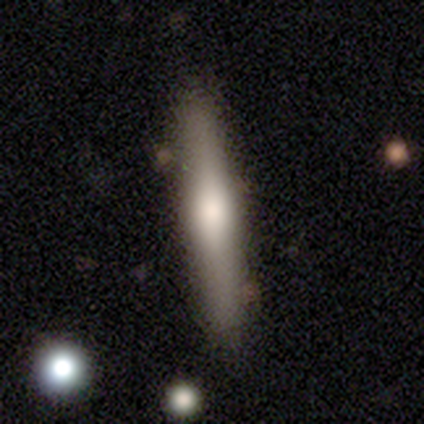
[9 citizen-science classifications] smooth 67%, featured or disk 33%, star or artifact 0%. Down the decision tree: how rounded — cigar-shaped (83%); merging — none (67%).